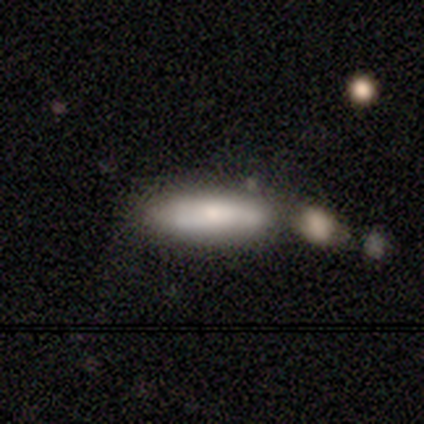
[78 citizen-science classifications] Smooth or featured?
  - smooth: 69% *
  - featured or disk: 26%
  - star or artifact: 5%
How rounded?
  - cigar-shaped: 54% *
  - in between: 46%
  - round: 0%
Merging?
  - none: 32% *
  - merger: 27%
  - minor disturbance: 5%
  - major disturbance: 4%